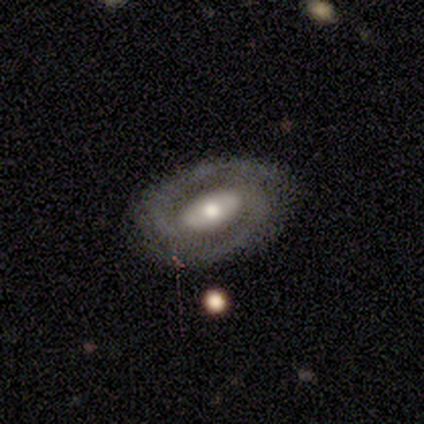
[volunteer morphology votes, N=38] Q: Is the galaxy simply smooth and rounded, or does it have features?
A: featured or disk — 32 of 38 (84%).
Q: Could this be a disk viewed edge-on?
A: no — 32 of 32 (100%).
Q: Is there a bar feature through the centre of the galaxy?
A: strong — 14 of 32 (44%).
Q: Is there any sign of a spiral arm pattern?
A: yes — 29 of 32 (91%).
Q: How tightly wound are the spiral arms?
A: tight — 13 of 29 (45%).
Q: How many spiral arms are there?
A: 2 — 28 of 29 (97%).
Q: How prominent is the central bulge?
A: moderate — 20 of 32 (62%).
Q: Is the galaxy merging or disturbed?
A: none — 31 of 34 (91%).